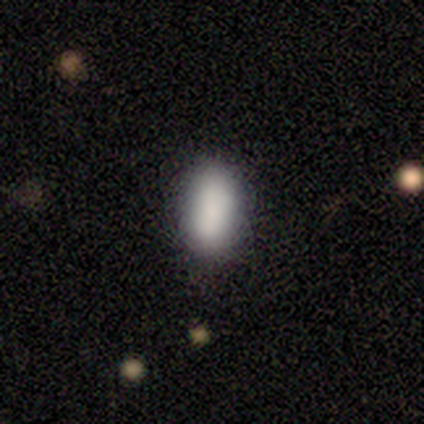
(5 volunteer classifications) smooth 80%, featured or disk 20%, star or artifact 0%. Down the decision tree: how rounded — in between (100%); merging — none (80%).